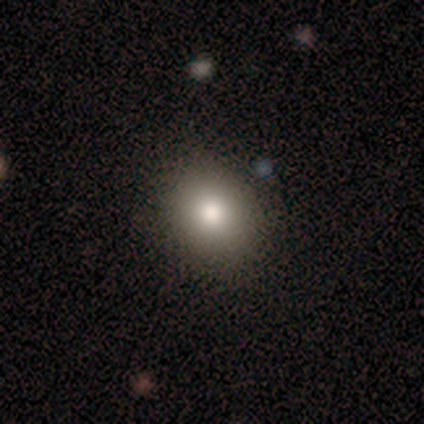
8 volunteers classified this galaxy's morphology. Smooth or featured? 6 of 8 (75%) said smooth. How rounded? 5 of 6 (83%) said round. Merging? 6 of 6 (100%) said none.